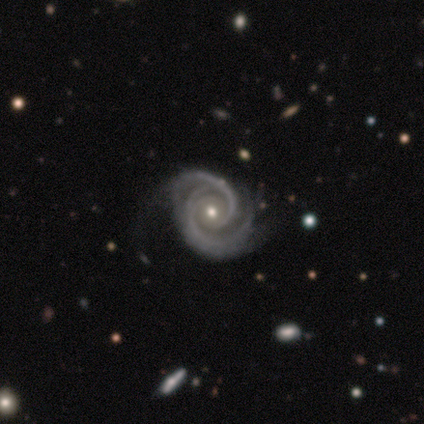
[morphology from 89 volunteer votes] Volunteers were most divided on "bulge size": small: 51%, moderate: 47%, large: 1%, none: 1%, dominant: 0%. More confident: spiral arms — yes (100%); edge-on disk — no (99%); smooth or featured — featured or disk (94%); spiral winding — tight (80%); bar — no (70%); spiral arm count — 2 (67%); merging — none (64%).